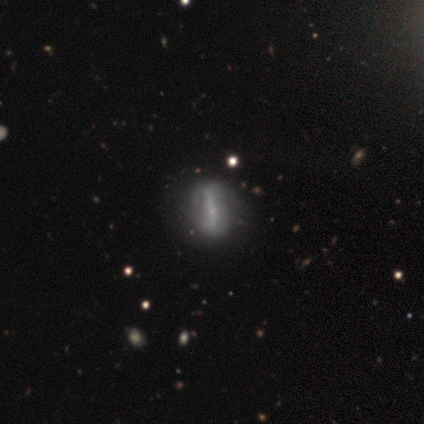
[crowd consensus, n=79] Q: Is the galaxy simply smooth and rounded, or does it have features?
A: featured or disk — 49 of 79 (62%).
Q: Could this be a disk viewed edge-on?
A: no — 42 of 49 (86%).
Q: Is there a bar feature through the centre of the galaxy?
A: strong — 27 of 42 (64%).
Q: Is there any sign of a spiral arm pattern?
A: no — 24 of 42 (57%).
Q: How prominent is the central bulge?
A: small — 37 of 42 (88%).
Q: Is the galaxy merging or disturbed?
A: none — 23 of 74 (31%).